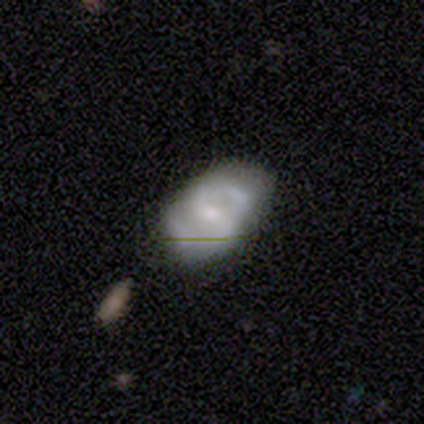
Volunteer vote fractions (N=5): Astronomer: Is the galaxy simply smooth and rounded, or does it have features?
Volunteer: featured or disk — 80%.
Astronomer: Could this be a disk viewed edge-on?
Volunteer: no — 100%.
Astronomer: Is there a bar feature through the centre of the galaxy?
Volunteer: no — 50%.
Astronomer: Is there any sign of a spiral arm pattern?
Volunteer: yes — 100%.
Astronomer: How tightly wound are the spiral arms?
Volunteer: medium — 50%.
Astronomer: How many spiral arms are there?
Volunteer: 2 — 100%.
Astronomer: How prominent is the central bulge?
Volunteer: moderate — 75%.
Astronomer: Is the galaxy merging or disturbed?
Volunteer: none — 60% (runner-up: minor disturbance, 40%).